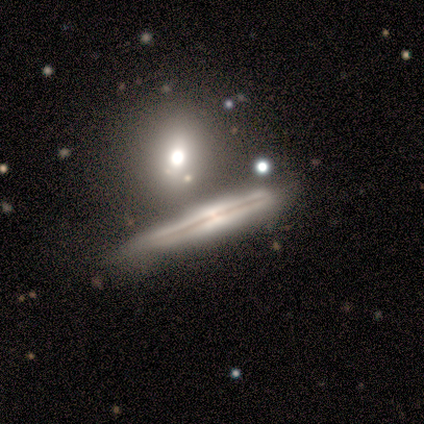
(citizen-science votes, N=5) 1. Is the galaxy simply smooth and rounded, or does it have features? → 60% featured or disk, 40% smooth, 0% star or artifact.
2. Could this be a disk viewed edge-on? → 100% yes, 0% no.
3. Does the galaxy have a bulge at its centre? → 33% boxy (tied), 33% none (tied), 33% rounded (tied).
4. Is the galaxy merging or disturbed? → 80% none, 20% minor disturbance, 0% major disturbance, 0% merger.